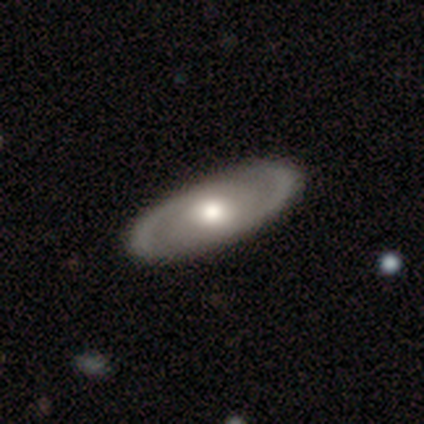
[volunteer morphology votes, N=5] This appears to be a featured or disk galaxy (80%) with a weak bar (50%, tied with no), 2 (100%) medium (67%) spiral arms (75%) and a moderate central bulge (50%). Merging: none (100%).